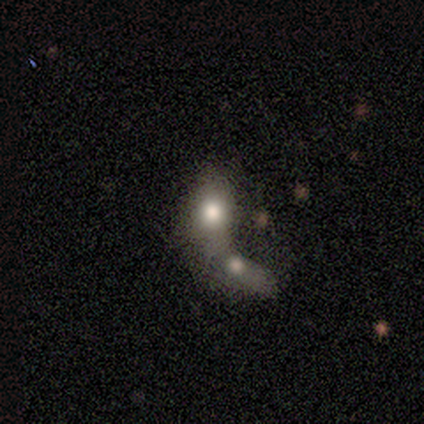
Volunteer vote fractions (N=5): Q: Smooth or featured?
A: smooth (60%); runner-up: featured or disk (20%)
Q: How rounded?
A: in between (67%); runner-up: round (33%)
Q: Merging?
A: merger (75%); runner-up: major disturbance (25%)